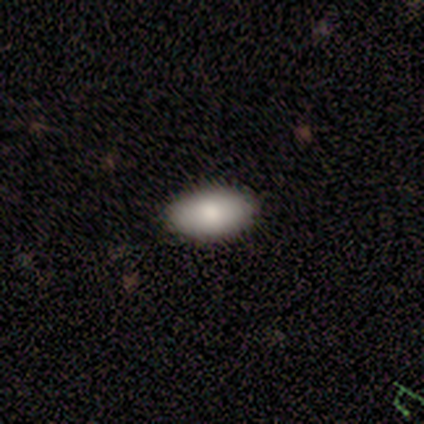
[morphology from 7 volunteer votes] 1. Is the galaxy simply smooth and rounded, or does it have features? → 100% smooth, 0% featured or disk, 0% star or artifact.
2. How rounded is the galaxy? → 100% in between, 0% round, 0% cigar-shaped.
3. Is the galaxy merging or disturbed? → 100% none, 0% minor disturbance, 0% major disturbance, 0% merger.